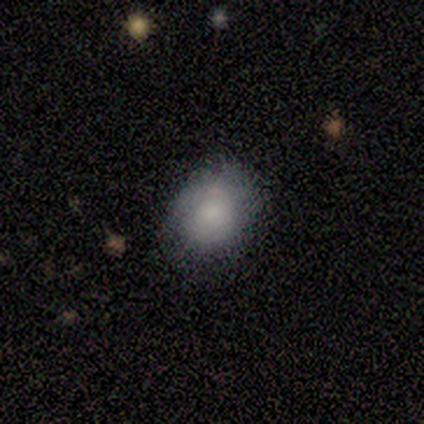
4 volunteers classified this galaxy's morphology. This appears to be a smooth galaxy with no disk features (50%, tied with featured or disk) that is round (50%, tied with in between). Merging: none (50%, tied with minor disturbance).